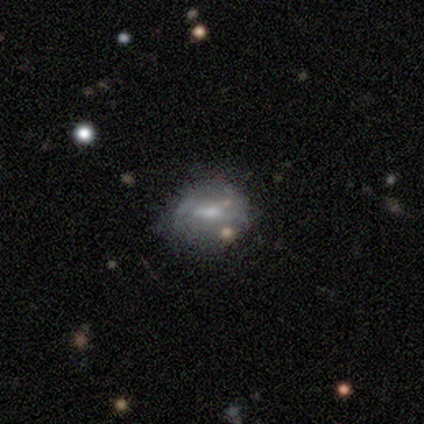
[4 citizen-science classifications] Volunteers were most divided on "smooth or featured": star or artifact: 50%, smooth: 25%, featured or disk: 25%.